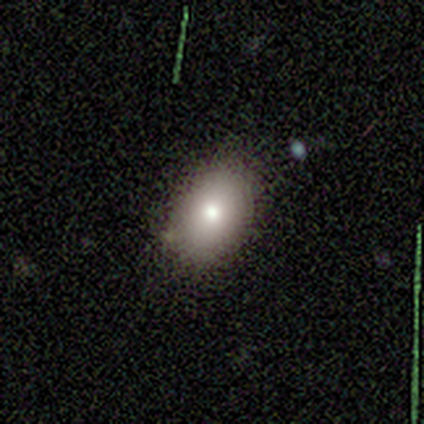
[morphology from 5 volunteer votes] This appears to be a smooth galaxy with no disk features (80%) that is in between round and cigar-shaped (100%). Merging: none (100%).